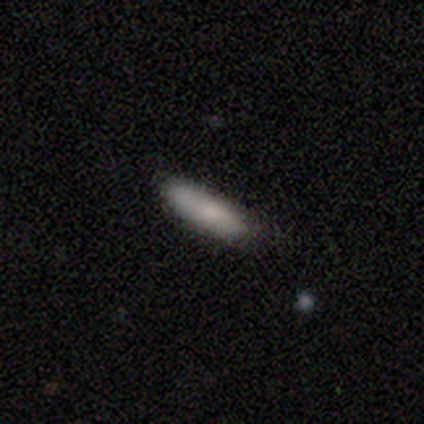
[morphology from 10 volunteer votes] Q: Smooth or featured?
A: smooth (70%); runner-up: featured or disk (20%)
Q: How rounded?
A: cigar-shaped (86%); runner-up: in between (14%)
Q: Merging?
A: none (78%); runner-up: minor disturbance (22%)